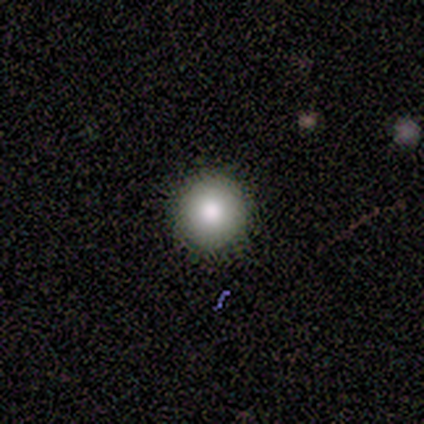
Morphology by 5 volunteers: Smooth or featured: smooth — 80% (star or artifact — 20%)
How rounded: round — 100%
Merging: none — 100%